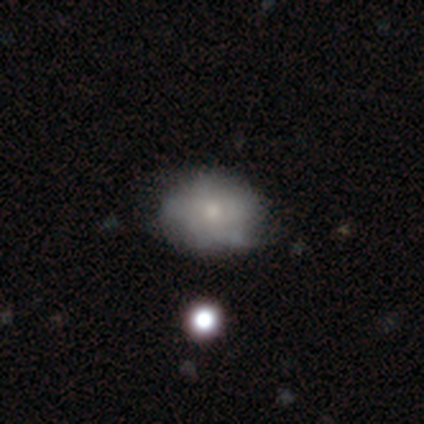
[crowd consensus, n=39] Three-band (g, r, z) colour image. It shows a featured or disk galaxy (46%) with no bar (89%), no spiral arms (83%) and a small central bulge (78%). Merging: none (29%).